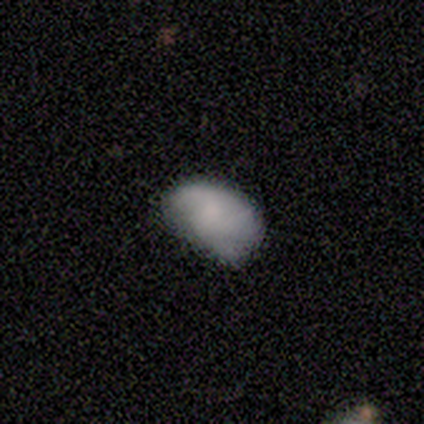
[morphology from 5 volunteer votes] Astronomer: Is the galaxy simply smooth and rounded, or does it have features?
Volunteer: smooth — 60%.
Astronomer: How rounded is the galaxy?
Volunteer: in between — 100%.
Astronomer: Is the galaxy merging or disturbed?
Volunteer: minor disturbance — 75%.